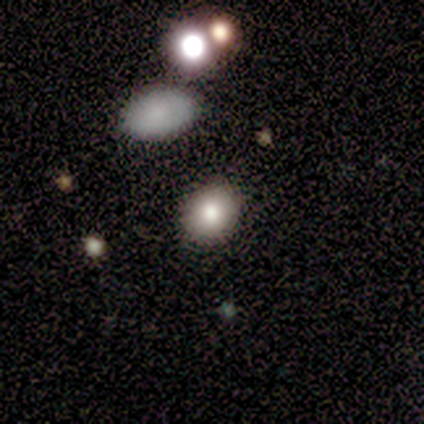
Volunteers were most divided on "how rounded": round: 75%, in between: 25%, cigar-shaped: 0%. More confident: merging — none (100%); smooth or featured — smooth (80%).